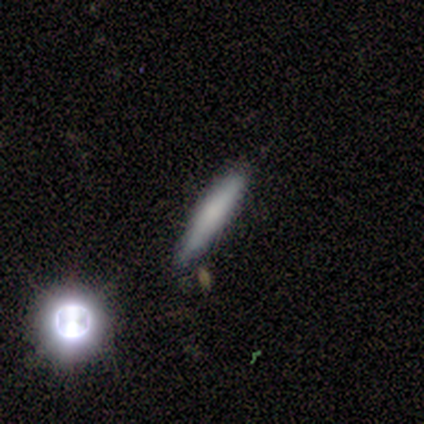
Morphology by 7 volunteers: type=smooth (43%); roundness=cigar-shaped (100%); merging=none (80%).